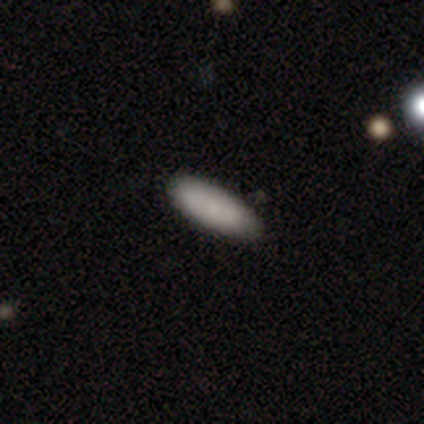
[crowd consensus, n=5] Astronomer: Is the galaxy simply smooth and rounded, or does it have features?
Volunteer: smooth — 80%.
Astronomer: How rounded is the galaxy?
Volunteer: in between — 75%.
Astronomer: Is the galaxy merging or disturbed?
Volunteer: none — 80%.